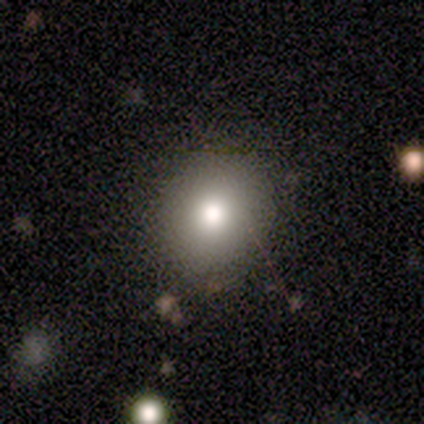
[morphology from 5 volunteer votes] A smooth galaxy with no disk features (100%) that is round (100%).

Vote fractions:
- Smooth or featured? smooth: 100% / featured or disk: 0% / star or artifact: 0%
- How rounded? round: 100% / in between: 0% / cigar-shaped: 0%
- Merging? none: 100% / minor disturbance: 0% / major disturbance: 0% / merger: 0%